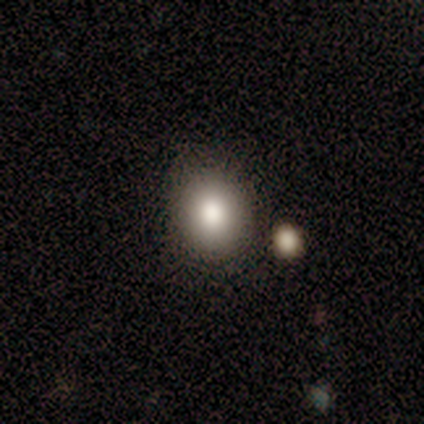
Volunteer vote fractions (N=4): Smooth or featured?
  - smooth: 75% *
  - featured or disk: 25%
  - star or artifact: 0%
How rounded?
  - round: 67% *
  - in between: 33%
  - cigar-shaped: 0%
Merging?
  - none: 75% *
  - minor disturbance: 25%
  - major disturbance: 0%
  - merger: 0%